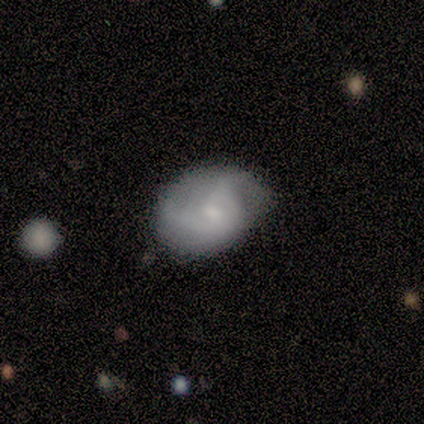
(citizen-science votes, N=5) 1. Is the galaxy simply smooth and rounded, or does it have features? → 60% featured or disk, 40% smooth, 0% star or artifact.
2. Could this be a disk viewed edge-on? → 100% no, 0% yes.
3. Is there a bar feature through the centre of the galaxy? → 67% no, 33% weak, 0% strong.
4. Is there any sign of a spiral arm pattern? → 100% yes, 0% no.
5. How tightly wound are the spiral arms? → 67% medium, 33% tight, 0% loose.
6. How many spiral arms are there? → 67% can't tell, 33% 2, 0% 1, 0% 3, 0% 4, 0% more than 4.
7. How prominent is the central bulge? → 67% small, 33% moderate, 0% dominant, 0% large, 0% none.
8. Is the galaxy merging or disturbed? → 80% none, 20% minor disturbance, 0% major disturbance, 0% merger.